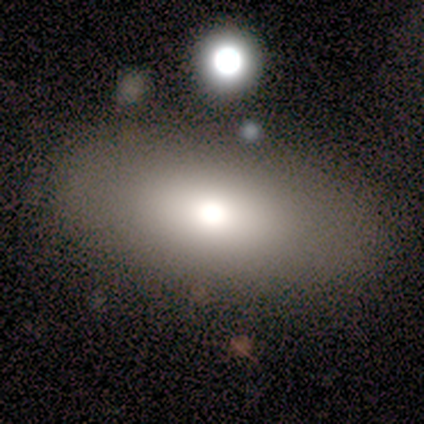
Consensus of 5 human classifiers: smooth 60%, featured or disk 40%, star or artifact 0%. Down the decision tree: how rounded — in between (100%); merging — none (100%).